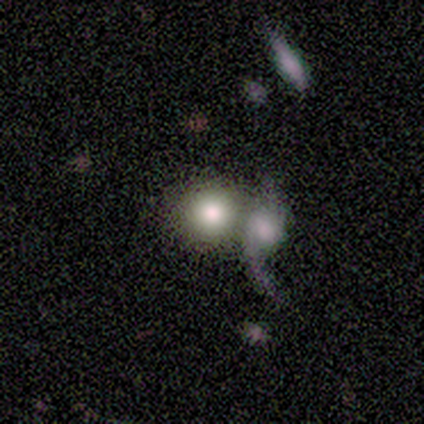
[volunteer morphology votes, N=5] This appears to be a smooth galaxy with no disk features (60%) that is round (100%). Merging: none (50%, tied with merger).